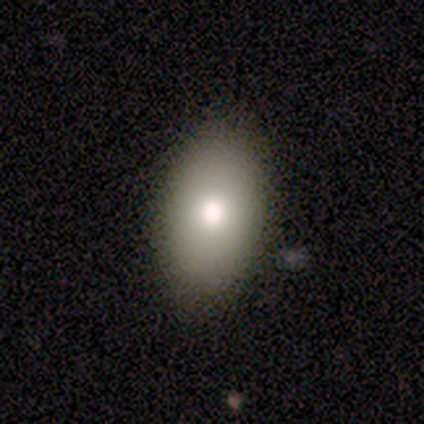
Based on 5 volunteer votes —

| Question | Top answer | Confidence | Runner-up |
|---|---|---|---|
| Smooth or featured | smooth | 80% | featured or disk (20%) |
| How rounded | in between | 100% | — |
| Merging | none | 80% | minor disturbance (20%) |